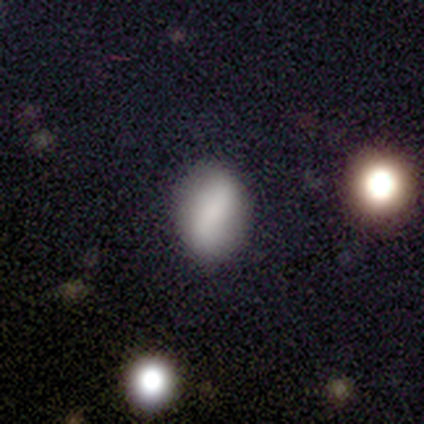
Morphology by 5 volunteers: This is likely a smooth galaxy (60%). How rounded: clearly in between (100%). Merging: clearly none (100%).